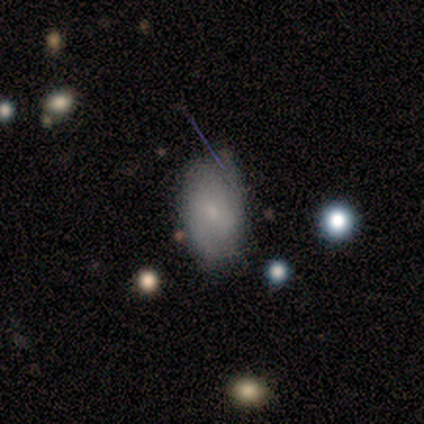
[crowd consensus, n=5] smooth 60%, featured or disk 20%, star or artifact 20%. Down the decision tree: how rounded — in between (67%); merging — none (50%, tied with minor disturbance).